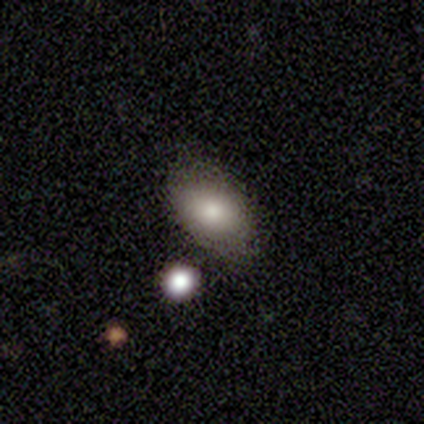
A smooth galaxy with no disk features (80%) that is in between round and cigar-shaped (100%).

Vote fractions:
- Smooth or featured? smooth: 80% / star or artifact: 20% / featured or disk: 0%
- How rounded? in between: 100% / round: 0% / cigar-shaped: 0%
- Merging? none: 75% / major disturbance: 25% / minor disturbance: 0% / merger: 0%